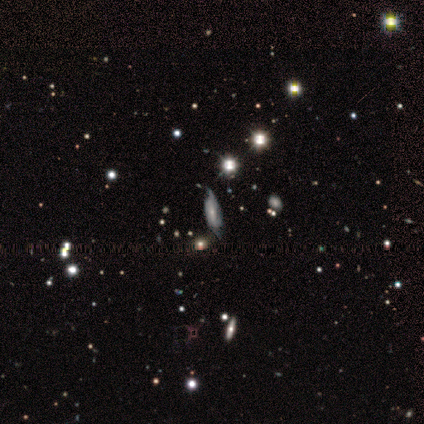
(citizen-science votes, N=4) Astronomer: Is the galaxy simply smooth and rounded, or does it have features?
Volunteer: star or artifact — 75%.